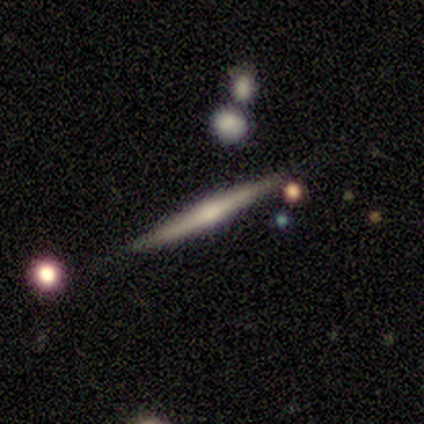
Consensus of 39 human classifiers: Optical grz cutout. It shows a featured or disk galaxy (77%) viewed edge-on (97%) with a rounded central bulge (59%). Merging: none (86%).